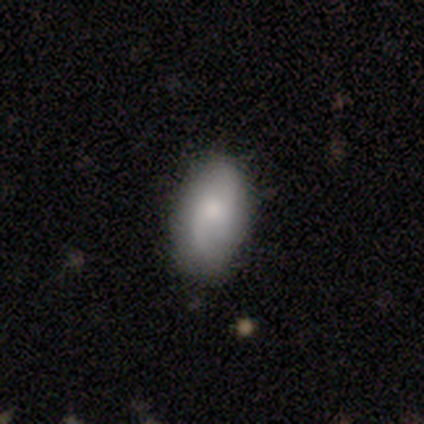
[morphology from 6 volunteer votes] Q: Smooth or featured?
A: smooth (67%); runner-up: featured or disk (33%)
Q: How rounded?
A: in between (100%)
Q: Merging?
A: none (50%); tied with: minor disturbance (50%)